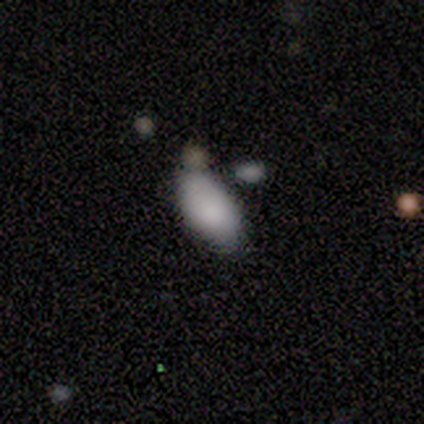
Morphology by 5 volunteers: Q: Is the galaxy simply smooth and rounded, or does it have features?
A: smooth — 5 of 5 (100%).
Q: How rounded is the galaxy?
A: in between — 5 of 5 (100%).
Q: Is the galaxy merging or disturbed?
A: none — 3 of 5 (60%).